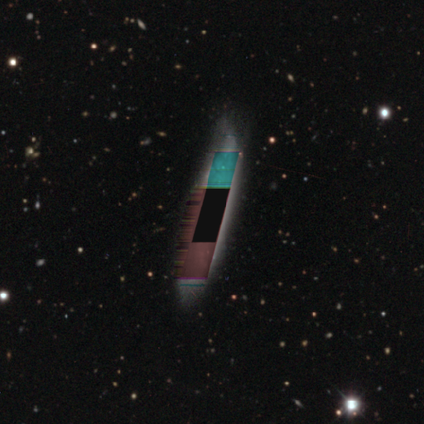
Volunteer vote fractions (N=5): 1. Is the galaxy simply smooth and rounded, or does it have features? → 60% star or artifact, 40% smooth, 0% featured or disk.